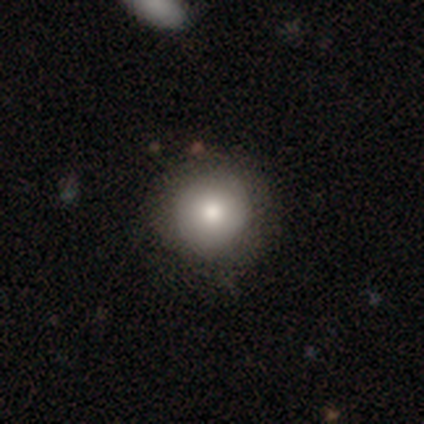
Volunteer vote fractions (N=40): A smooth galaxy with no disk features (80%) that is round (100%).

Vote fractions:
- Smooth or featured? smooth: 80% / featured or disk: 12% / star or artifact: 8%
- How rounded? round: 100% / in between: 0% / cigar-shaped: 0%
- Merging? none: 86% / minor disturbance: 8% / major disturbance: 5% / merger: 0%